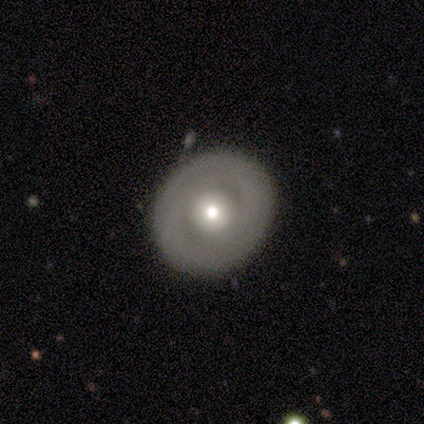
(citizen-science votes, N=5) Smooth or featured?
  - featured or disk: 60% *
  - smooth: 40%
  - star or artifact: 0%
Edge-on disk?
  - no: 100% *
  - yes: 0%
Bar?
  - no: 100% *
  - strong: 0%
  - weak: 0%
Spiral arms?
  - no: 67% *
  - yes: 33%
Bulge size?
  - moderate: 100% *
  - dominant: 0%
  - large: 0%
  - small: 0%
  - none: 0%
Merging?
  - none: 80% *
  - minor disturbance: 20%
  - major disturbance: 0%
  - merger: 0%